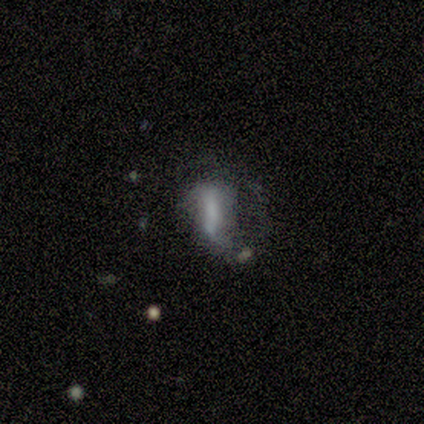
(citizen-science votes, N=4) Overall: smooth (50%; featured or disk 25%). How rounded: in between (50%, tied with cigar-shaped). Merging: none (33%, tied with major disturbance and merger).